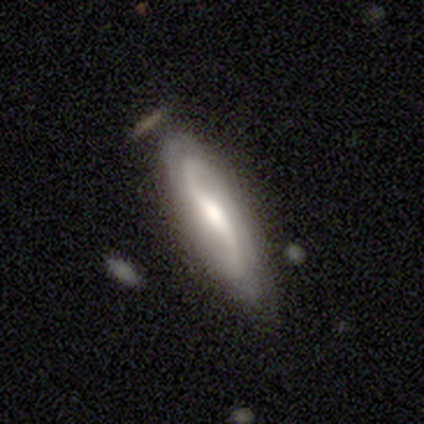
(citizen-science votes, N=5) Smooth or featured: featured or disk — 60% (smooth — 20%)
Edge-on disk: no — 100%
Bar: strong — 67% (weak — 33%)
Spiral arms: yes — 100%
Spiral winding: tight — 33% (tied with medium — 33%; loose — 33%)
Spiral arm count: 2 — 67% (can't tell — 33%)
Bulge size: large — 33% (tied with moderate — 33%; small — 33%)
Merging: minor disturbance — 75% (none — 25%)